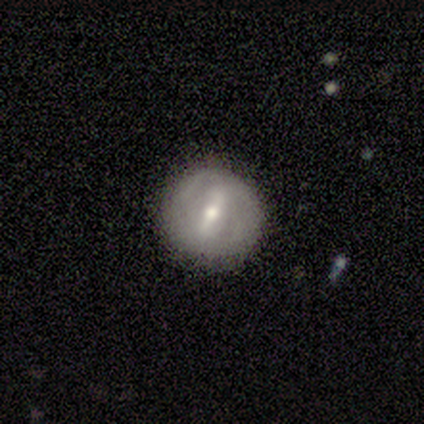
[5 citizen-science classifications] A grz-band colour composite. It shows a featured or disk galaxy (60%) with a strong bar (33%, tied with weak and no), no spiral arms (67%) and a small central bulge (100%). Merging: none (100%).